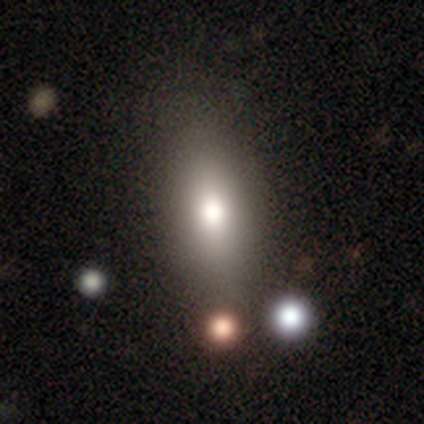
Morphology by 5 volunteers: Smooth or featured?
  - star or artifact: 60% *
  - smooth: 40%
  - featured or disk: 0%